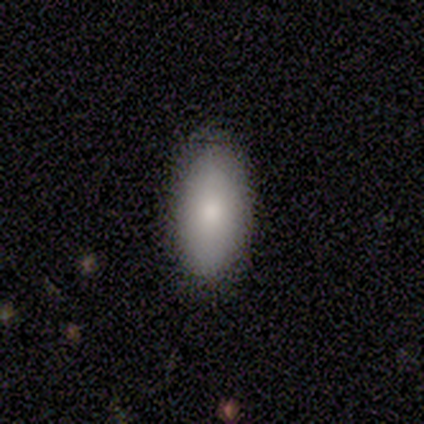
smooth 60%, featured or disk 20%, star or artifact 20%. Down the decision tree: how rounded — in between (100%); merging — none (75%).